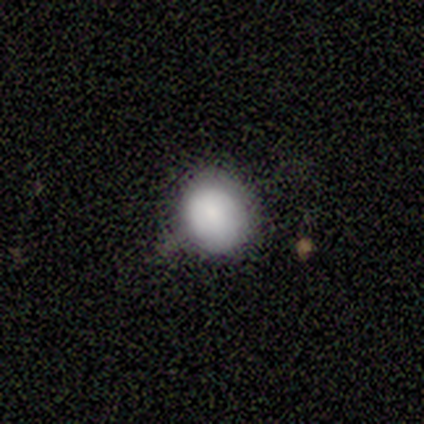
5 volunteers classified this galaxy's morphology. smooth-or-featured: smooth: 60% | star or artifact: 40% | featured or disk: 0%
  how-rounded: round: 100% | in between: 0% | cigar-shaped: 0%
  merging: none: 100% | minor disturbance: 0% | major disturbance: 0% | merger: 0%